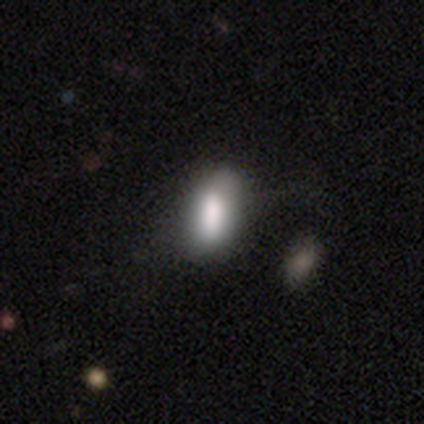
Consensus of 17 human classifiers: Smooth or featured? 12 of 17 (71%) said smooth. How rounded? 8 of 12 (67%) said in between. Merging? 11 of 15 (73%) said none.